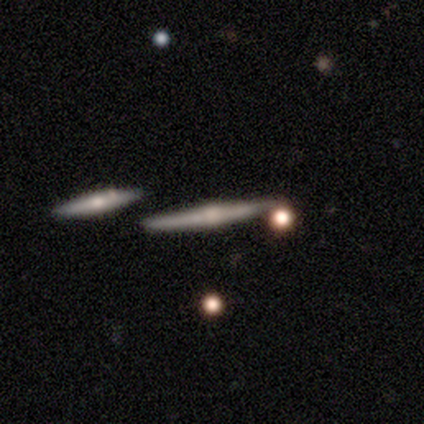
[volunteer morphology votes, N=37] Smooth or featured? featured or disk (62%)
Edge-on disk? yes (100%)
Edge-on bulge? rounded (91%)
Merging? none (86%)